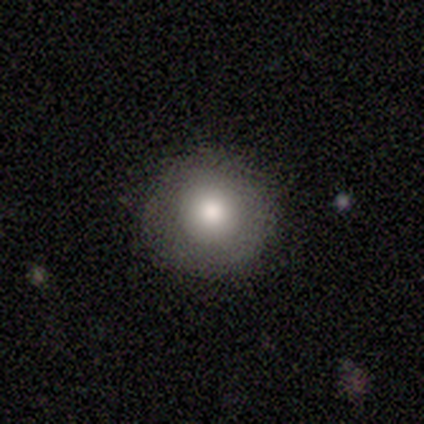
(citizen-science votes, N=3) Smooth or featured: smooth — 100%
How rounded: round — 100%
Merging: none — 100%